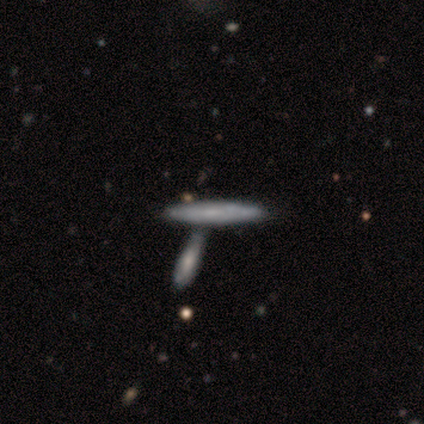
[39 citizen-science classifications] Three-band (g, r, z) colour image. It shows a smooth galaxy with no disk features (49%) that is cigar-shaped (89%). Merging: merger (62%).